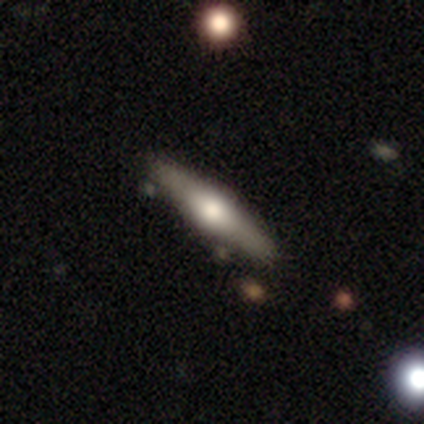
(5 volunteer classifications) Volunteers were most divided on "smooth or featured": featured or disk: 80%, smooth: 20%, star or artifact: 0%. More confident: edge-on disk — yes (100%); edge-on bulge — rounded (100%); merging — none (80%).